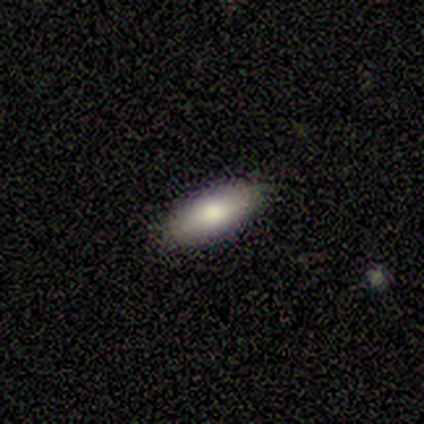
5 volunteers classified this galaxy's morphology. type=smooth (80%); roundness=in between (75%); merging=none (80%).